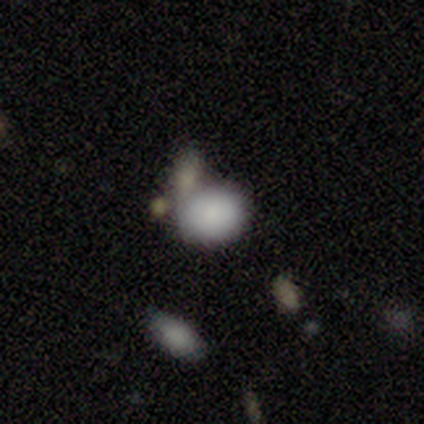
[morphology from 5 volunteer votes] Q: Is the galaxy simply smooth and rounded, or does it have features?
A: smooth — 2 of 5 (40%, tied with featured or disk).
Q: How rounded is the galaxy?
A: in between — 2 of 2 (100%).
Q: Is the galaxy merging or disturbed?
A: merger — 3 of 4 (75%).